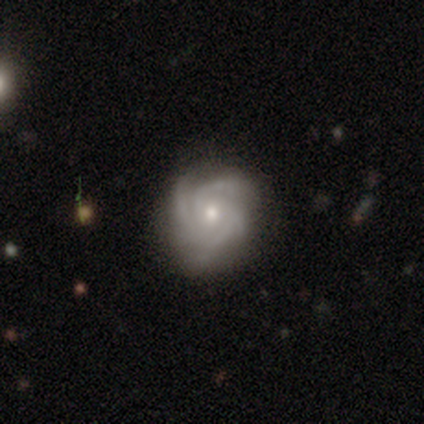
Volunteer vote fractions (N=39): This is clearly a featured or disk galaxy (87%). It is clearly not viewed edge-on (94%). Bar: likely no (78%). Spiral arm pattern: clearly yes (97%). Spiral arm count: marginally 4 (42%). Spiral winding: possibly tight (52%). Central bulge: possibly moderate (53%). Merging: likely none (72%).